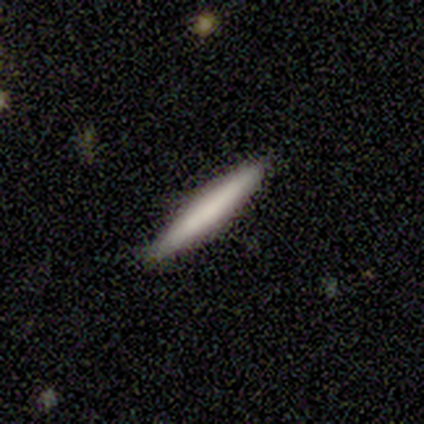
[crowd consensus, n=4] A featured or disk galaxy (50%) viewed edge-on (100%) with no central bulge (100%). Merging: none (100%).